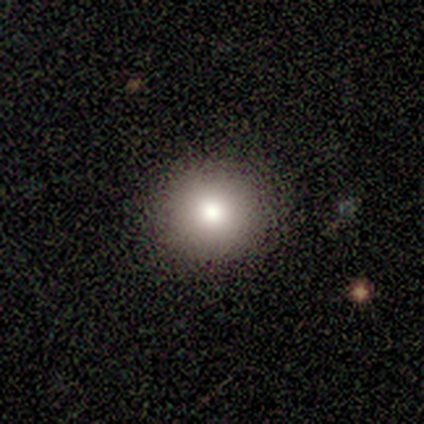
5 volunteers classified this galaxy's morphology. Q: Smooth or featured?
A: smooth (100%)
Q: How rounded?
A: round (80%); runner-up: in between (20%)
Q: Merging?
A: none (100%)